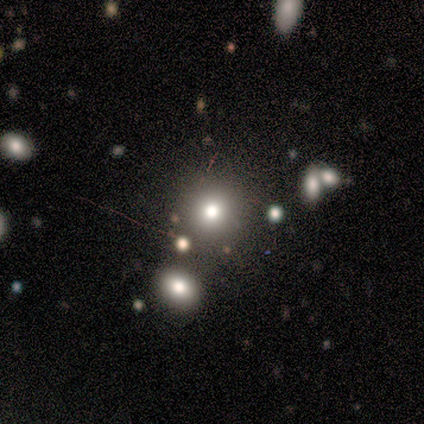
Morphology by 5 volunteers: Overall: smooth (60%; star or artifact 40%). How rounded: round (100%). Merging: none (100%).